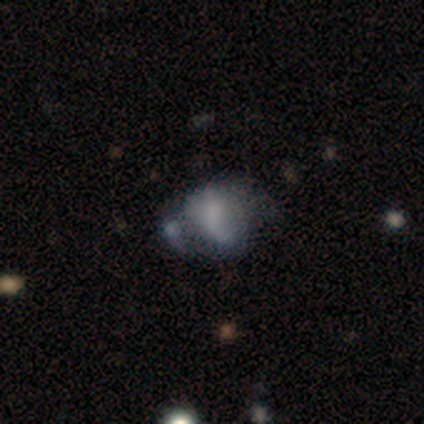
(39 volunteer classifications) Morphology: type=smooth (56%); roundness=round (50%, tied with in between); merging=merger (32%).